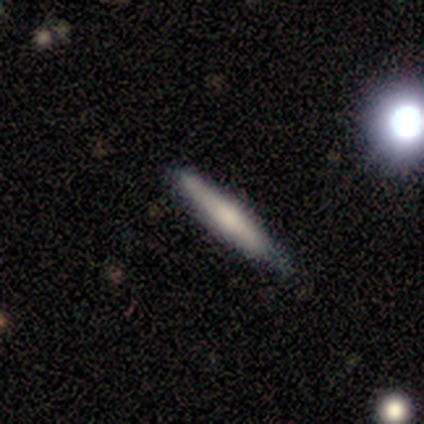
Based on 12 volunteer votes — smooth_or_featured: smooth (p=0.58) [alt: featured or disk p=0.33]
how_rounded: cigar-shaped (p=0.86) [alt: in between p=0.14]
merging: none (p=0.73) [alt: minor disturbance p=0.18]